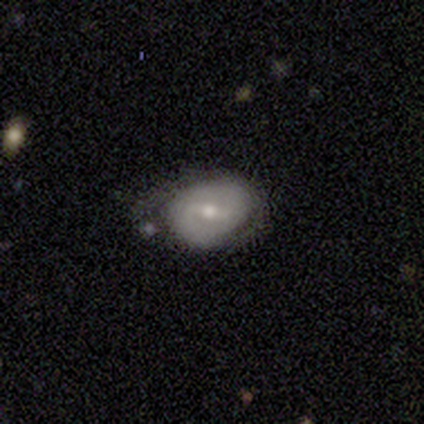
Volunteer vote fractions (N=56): Smooth or featured: featured or disk — 71% (smooth — 25%)
Edge-on disk: no — 100%
Bar: weak — 55% (strong — 35%)
Spiral arms: yes — 65% (no — 35%)
Spiral winding: medium — 50% (tight — 38%)
Spiral arm count: 2 — 85% (1 — 8%)
Bulge size: moderate — 65% (small — 32%)
Merging: minor disturbance — 41% (none — 39%)